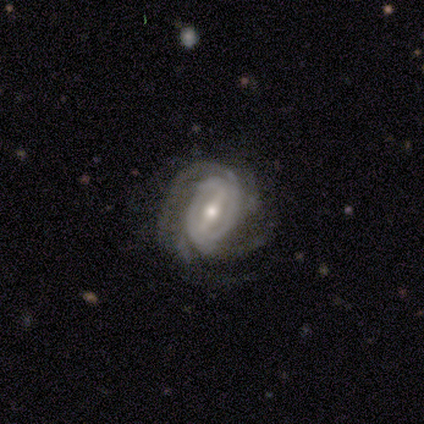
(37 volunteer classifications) Smooth or featured: featured or disk — 97% (star or artifact — 3%)
Edge-on disk: no — 100%
Bar: strong — 67% (weak — 28%)
Spiral arms: yes — 94% (no — 6%)
Spiral winding: tight — 56% (medium — 38%)
Spiral arm count: 4 — 32% (3 — 24%)
Bulge size: moderate — 56% (small — 36%)
Merging: none — 75% (minor disturbance — 17%)